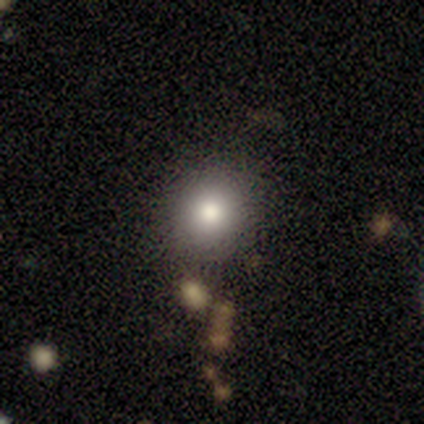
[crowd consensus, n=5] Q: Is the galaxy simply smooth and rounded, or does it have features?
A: smooth — 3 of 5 (60%).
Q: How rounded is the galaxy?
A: round — 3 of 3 (100%).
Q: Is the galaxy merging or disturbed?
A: none — 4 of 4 (100%).